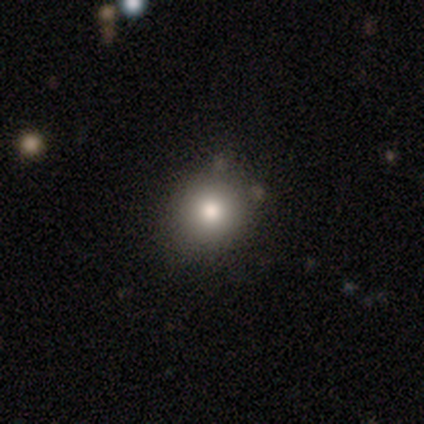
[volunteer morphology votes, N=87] Smooth or featured? smooth (80%)
How rounded? round (84%)
Merging? none (81%)